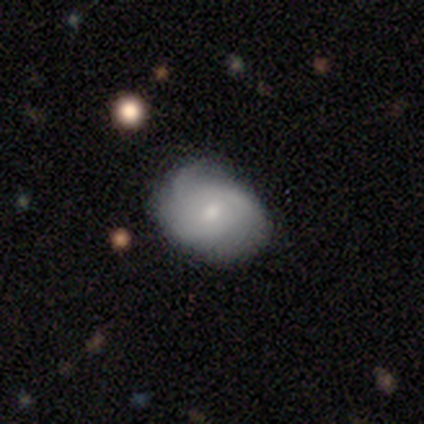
smooth 44%, featured or disk 41%, star or artifact 15%. Down the decision tree: how rounded — in between (71%); merging — none (64%).